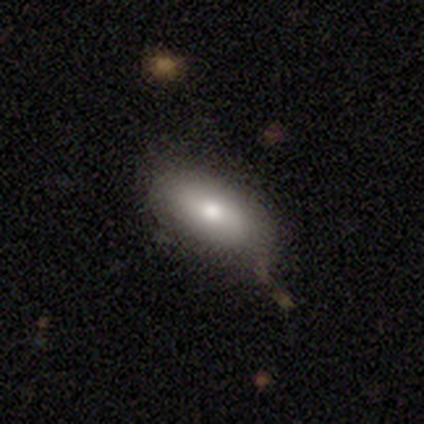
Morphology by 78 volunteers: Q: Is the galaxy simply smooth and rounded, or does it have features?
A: smooth — 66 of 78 (85%).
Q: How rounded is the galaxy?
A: in between — 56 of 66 (85%).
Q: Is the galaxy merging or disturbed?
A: none — 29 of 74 (39%).